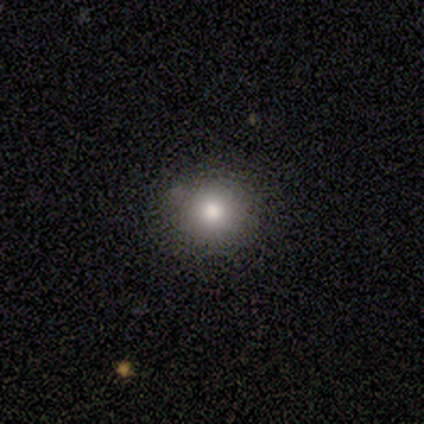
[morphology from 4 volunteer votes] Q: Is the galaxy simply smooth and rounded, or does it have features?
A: star or artifact — 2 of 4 (50%).